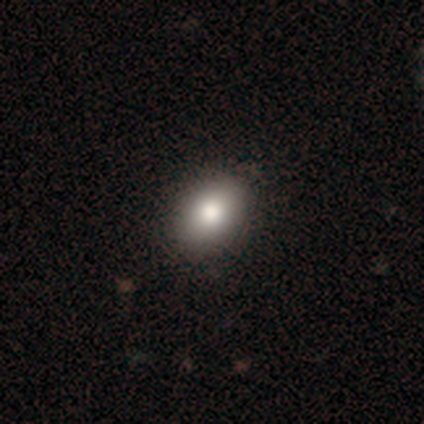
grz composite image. It shows a smooth galaxy with no disk features (82%) that is in between round and cigar-shaped (84%). Merging: none (44%).